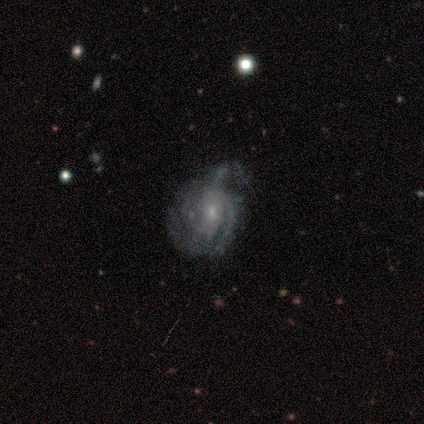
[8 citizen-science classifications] Overall: featured or disk (100%). Edge-on disk: no (100%). Bar: no (75%). Spiral arms: yes (75%). Spiral arm count: can't tell (50%; 1 17%). Spiral winding: tight (67%; medium 33%). Bulge size: small (62%; moderate 38%). Merging: none (50%; minor disturbance 25%).